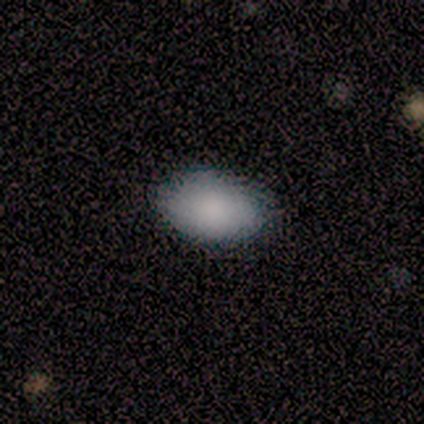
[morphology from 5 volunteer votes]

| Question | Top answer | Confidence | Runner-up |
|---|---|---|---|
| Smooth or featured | smooth | 100% | — |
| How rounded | in between | 80% | round (20%) |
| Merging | none | 100% | — |